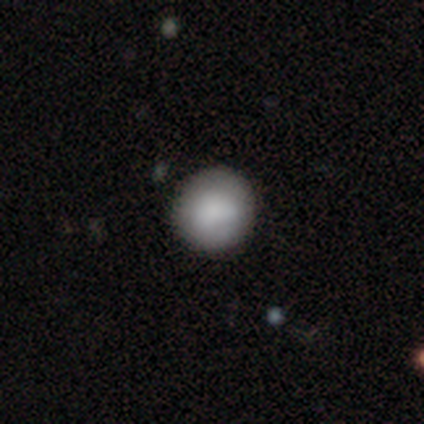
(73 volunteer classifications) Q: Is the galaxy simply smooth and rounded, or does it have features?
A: smooth — 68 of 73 (93%).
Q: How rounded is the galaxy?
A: round — 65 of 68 (96%).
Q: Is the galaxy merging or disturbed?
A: none — 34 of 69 (49%).